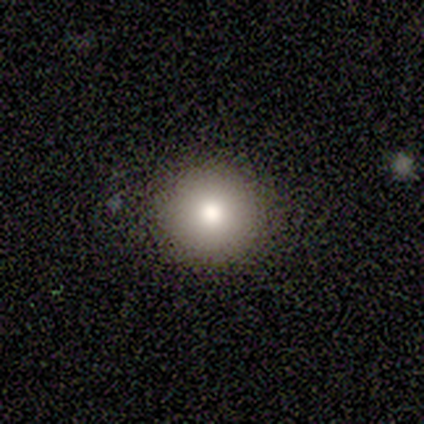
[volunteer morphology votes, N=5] type=smooth (60%); roundness=round (100%); merging=none (75%).